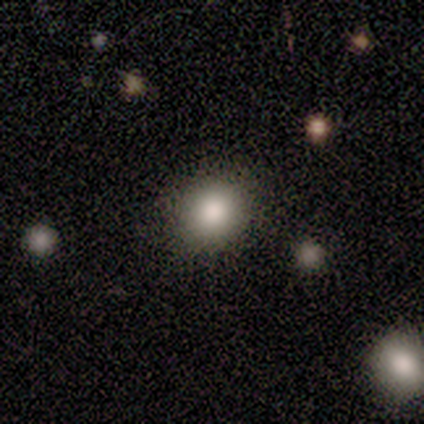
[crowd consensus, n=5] Smooth or featured? 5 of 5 (100%) said smooth. How rounded? 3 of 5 (60%) said round. Merging? 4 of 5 (80%) said none.